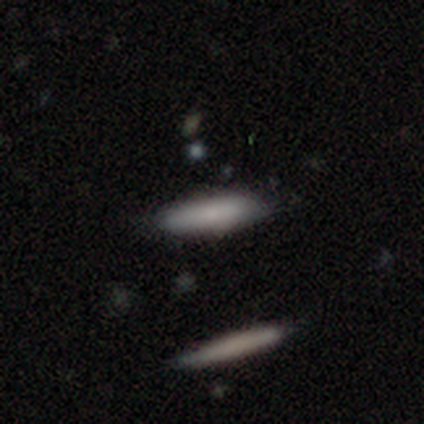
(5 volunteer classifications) This is clearly a smooth galaxy (80%). How rounded: likely in between (75%). Merging: likely none (60%).